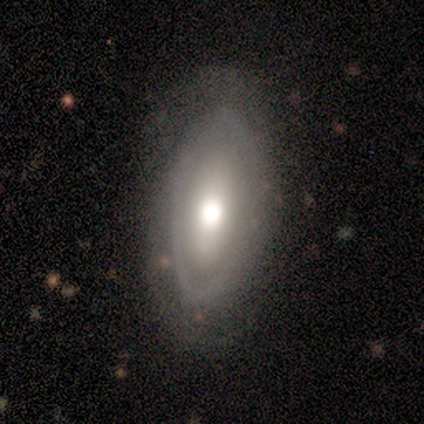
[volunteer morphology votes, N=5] Smooth or featured? featured or disk (60%)
Edge-on disk? no (100%)
Bar? no (67%)
Spiral arms? no (100%)
Bulge size? moderate (67%)
Merging? none (80%)